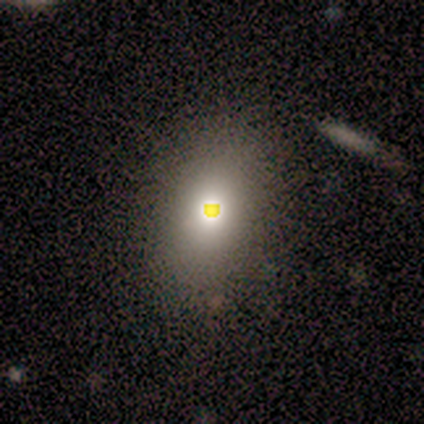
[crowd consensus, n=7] This appears to be a smooth galaxy with no disk features (43%, tied with star or artifact) that is in between round and cigar-shaped (67%). Merging: none (75%).